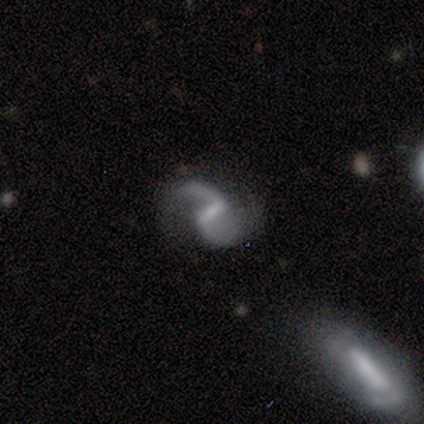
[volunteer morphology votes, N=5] Q: Smooth or featured?
A: featured or disk (100%)
Q: Edge-on disk?
A: no (100%)
Q: Bar?
A: weak (60%); runner-up: strong (40%)
Q: Spiral arms?
A: yes (100%)
Q: Spiral winding?
A: medium (60%); runner-up: loose (40%)
Q: Spiral arm count?
A: 2 (100%)
Q: Bulge size?
A: small (60%); runner-up: moderate (20%)
Q: Merging?
A: none (80%); runner-up: merger (20%)